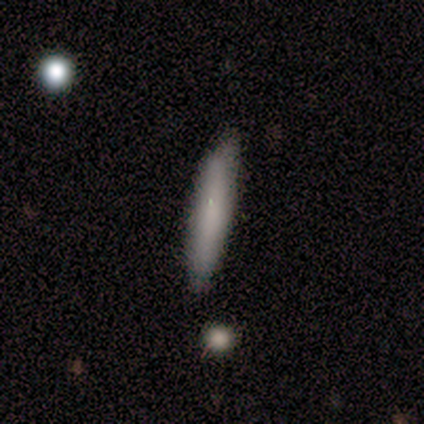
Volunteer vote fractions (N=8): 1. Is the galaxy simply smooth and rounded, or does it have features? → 50% smooth, 25% featured or disk, 25% star or artifact.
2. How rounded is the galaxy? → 100% cigar-shaped, 0% round, 0% in between.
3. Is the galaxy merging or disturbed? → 50% none (tied), 50% minor disturbance (tied), 0% major disturbance, 0% merger.